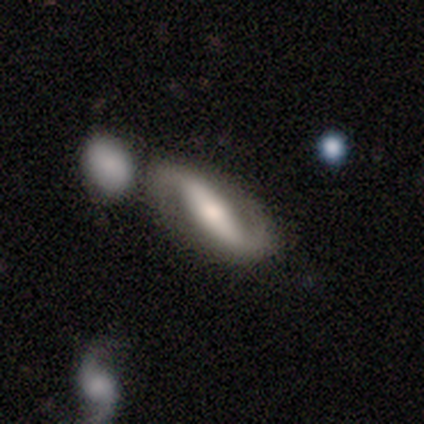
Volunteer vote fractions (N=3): Volunteers were most divided on "bar" (2-way tie): strong: 50%, no: 50%, weak: 0%; "merging" (3-way tie): none: 33%, minor disturbance: 33%, major disturbance: 33%, merger: 0%. More confident: edge-on disk — no (100%); spiral arms — yes (100%); spiral winding — loose (100%); spiral arm count — 2 (100%); bulge size — moderate (100%); smooth or featured — featured or disk (67%).